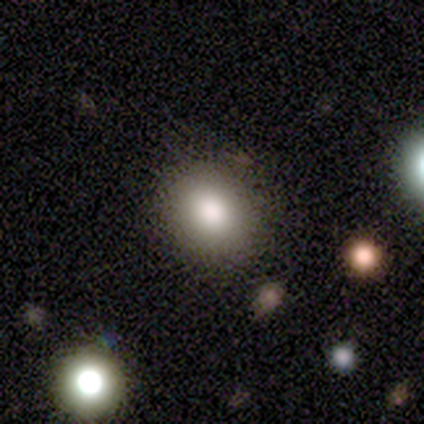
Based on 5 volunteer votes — Morphology: type=smooth (80%); roundness=round (75%); merging=none (75%).